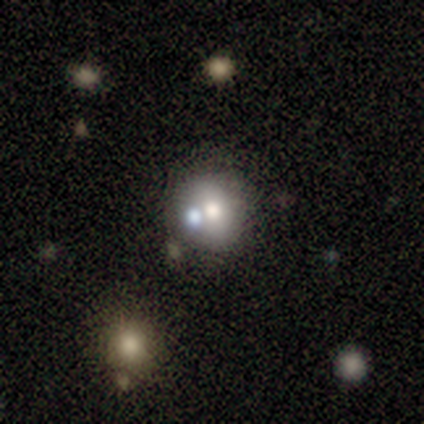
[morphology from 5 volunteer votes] Volunteers were most divided on "smooth or featured" (2-way tie): smooth: 40%, star or artifact: 40%, featured or disk: 20%. More confident: how rounded — round (100%); merging — none (100%).